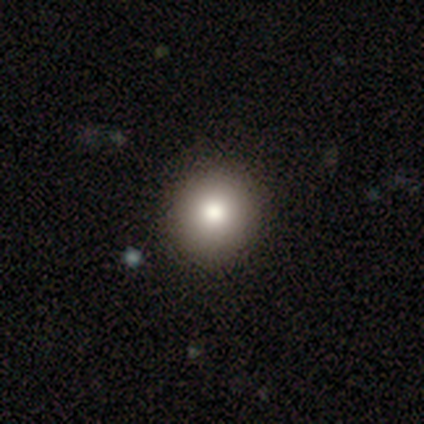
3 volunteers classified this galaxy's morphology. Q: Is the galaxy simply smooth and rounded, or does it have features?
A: smooth — 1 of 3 (33%, tied with featured or disk and star or artifact).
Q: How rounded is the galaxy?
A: round — 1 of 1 (100%).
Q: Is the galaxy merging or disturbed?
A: none — 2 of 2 (100%).